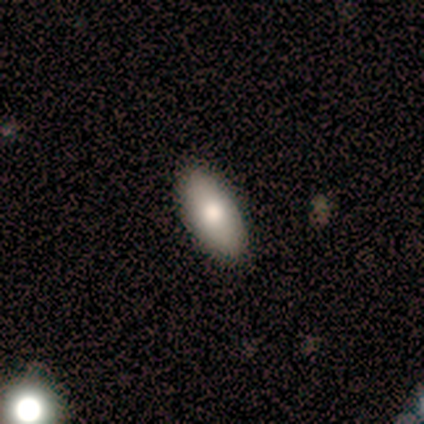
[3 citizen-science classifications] Smooth or featured? 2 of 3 (67%) said smooth. How rounded? 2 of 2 (100%) said in between. Merging? 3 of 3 (100%) said none.